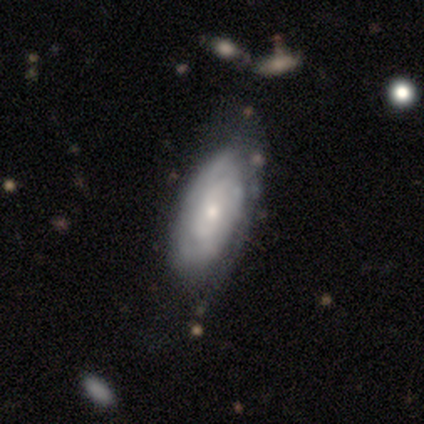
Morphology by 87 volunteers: This is likely a featured or disk galaxy (78%). It is clearly not viewed edge-on (90%). Bar: likely no (77%). Spiral arm pattern: likely yes (77%). Spiral arm count: possibly can't tell (57%). Spiral winding: likely tight (79%). Central bulge: likely small (74%). Merging: possibly none (49%).